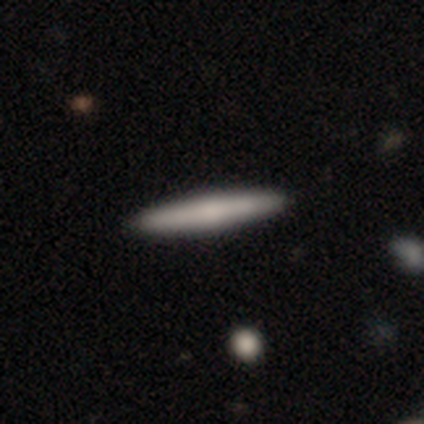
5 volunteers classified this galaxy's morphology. smooth_or_featured: featured or disk (p=0.60) [alt: smooth p=0.20]
disk_edge_on: yes (p=1.00)
edge_on_bulge: none (p=0.67) [alt: rounded p=0.33]
merging: none (p=1.00)